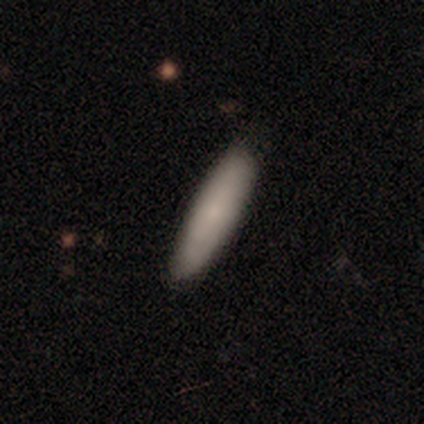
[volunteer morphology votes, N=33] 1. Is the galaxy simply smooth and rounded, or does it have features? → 82% smooth, 15% featured or disk, 3% star or artifact.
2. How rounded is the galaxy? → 78% cigar-shaped, 22% in between, 0% round.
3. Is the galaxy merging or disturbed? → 81% none, 19% minor disturbance, 0% major disturbance, 0% merger.